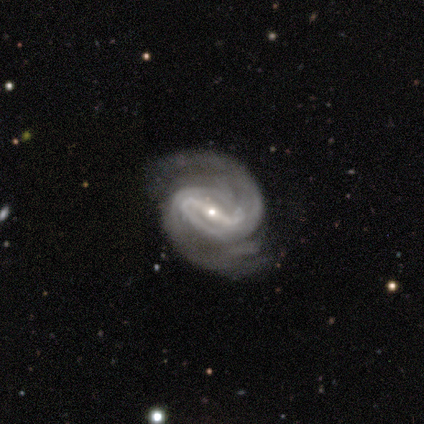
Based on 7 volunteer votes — Smooth or featured: featured or disk — 100%
Edge-on disk: no — 100%
Bar: strong — 100%
Spiral arms: yes — 100%
Spiral winding: tight — 57% (medium — 43%)
Spiral arm count: 2 — 86% (can't tell — 14%)
Bulge size: small — 86% (moderate — 14%)
Merging: minor disturbance — 57% (none — 43%)